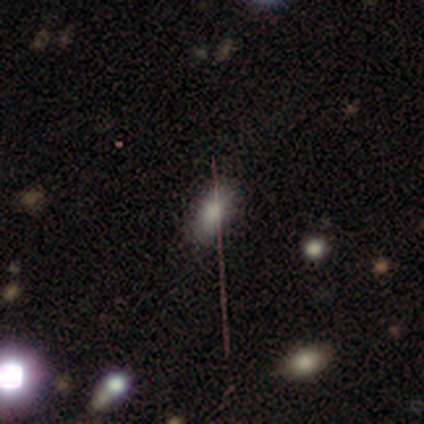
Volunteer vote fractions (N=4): Q: Smooth or featured?
A: smooth (50%); runner-up: featured or disk (25%)
Q: How rounded?
A: in between (50%); tied with: cigar-shaped (50%)
Q: Merging?
A: none (100%)